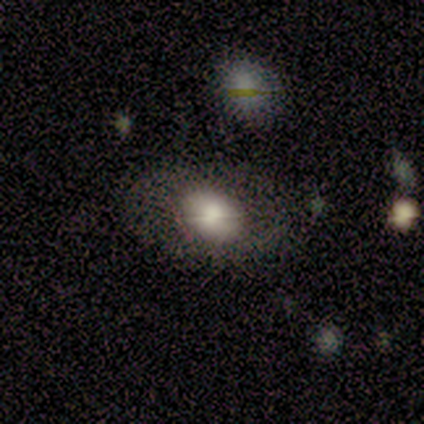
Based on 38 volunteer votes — A smooth galaxy with no disk features (53%) that is in between round and cigar-shaped (55%).

Vote fractions:
- Smooth or featured? smooth: 53% / featured or disk: 39% / star or artifact: 8%
- How rounded? in between: 55% / round: 35% / cigar-shaped: 10%
- Merging? none: 66% / minor disturbance: 20% / major disturbance: 11% / merger: 3%